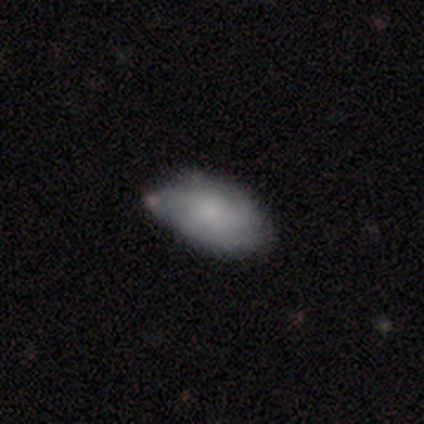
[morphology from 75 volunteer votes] This appears to be a smooth galaxy with no disk features (64%) that is in between round and cigar-shaped (94%). Merging: none (58%).